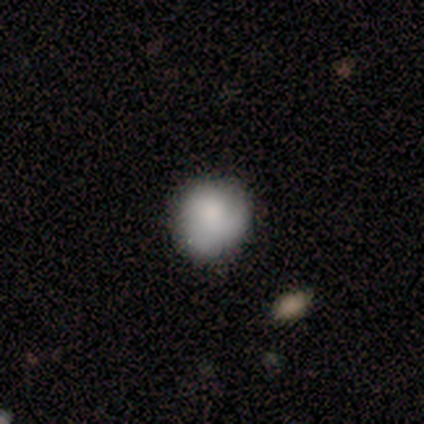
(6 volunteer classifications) This appears to be a smooth galaxy with no disk features (83%) that is round (80%). Merging: none (83%).